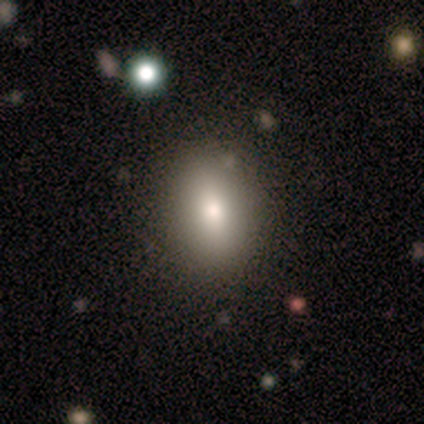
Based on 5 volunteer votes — A star or artifact, not a galaxy (60%).

Vote fractions:
- Smooth or featured? star or artifact: 60% / smooth: 20% / featured or disk: 20%